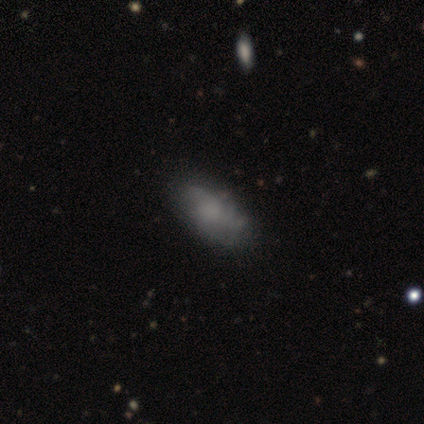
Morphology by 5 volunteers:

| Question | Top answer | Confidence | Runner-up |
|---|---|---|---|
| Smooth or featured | smooth | 80% | featured or disk (20%) |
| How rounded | in between | 100% | — |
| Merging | none | 80% | minor disturbance (20%) |